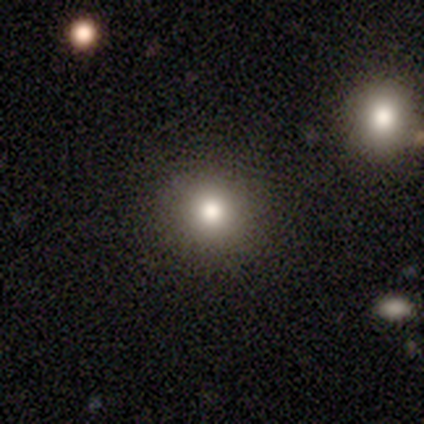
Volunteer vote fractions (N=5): Smooth or featured? 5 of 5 (100%) said smooth. How rounded? 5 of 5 (100%) said round. Merging? 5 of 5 (100%) said none.